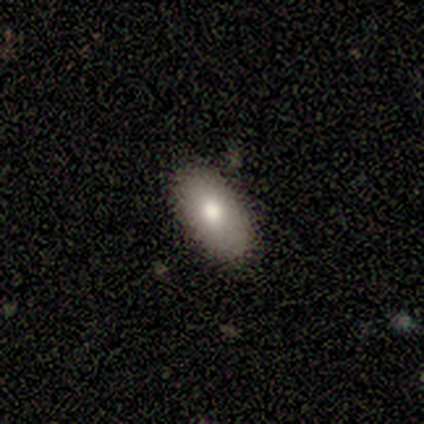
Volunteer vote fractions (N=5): This appears to be a smooth galaxy with no disk features (80%) that is in between round and cigar-shaped (100%). Merging: none (80%).